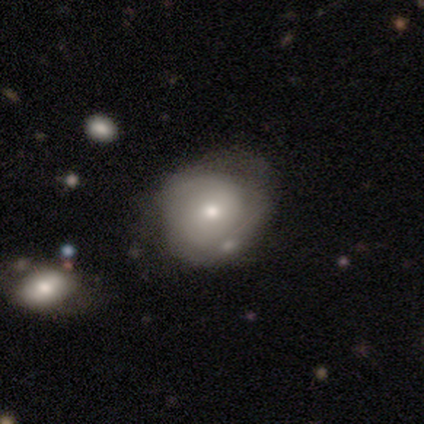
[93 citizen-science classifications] smooth 47%, featured or disk 45%, star or artifact 8%. Down the decision tree: how rounded — round (59%); merging — none (47%).